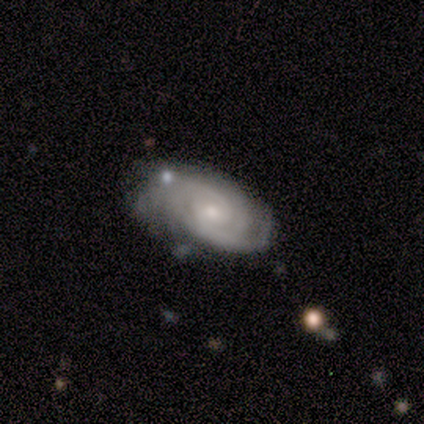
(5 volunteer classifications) This is clearly a featured or disk galaxy (80%). It is clearly not viewed edge-on (100%). Bar: possibly weak (50%, tied with no). Spiral arm pattern: clearly yes (100%). Spiral arm count: possibly 2 (50%). Spiral winding: possibly tight (50%). Central bulge: likely small (75%). Merging: possibly none (50%, tied with minor disturbance).